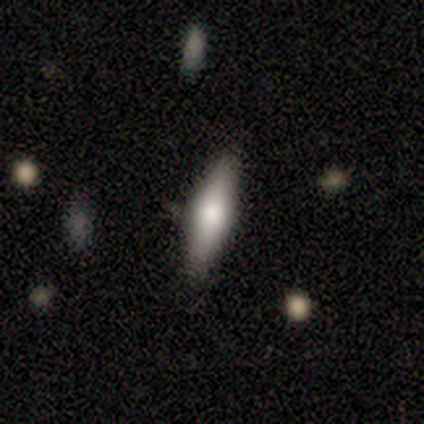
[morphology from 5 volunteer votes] Q: Smooth or featured?
A: smooth (100%)
Q: How rounded?
A: in between (60%); runner-up: cigar-shaped (40%)
Q: Merging?
A: none (80%); runner-up: minor disturbance (20%)